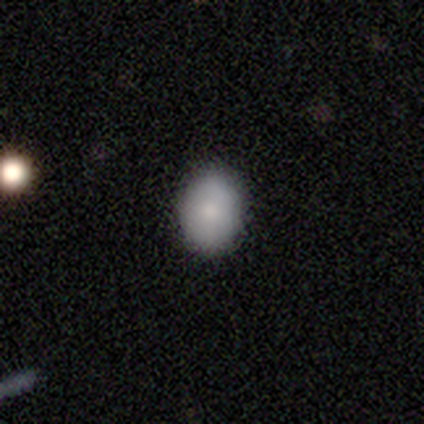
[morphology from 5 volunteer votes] Overall: smooth (100%). How rounded: round (60%; in between 40%). Merging: none (100%).